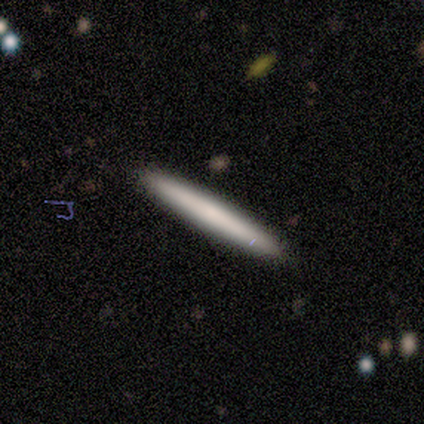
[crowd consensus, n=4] Volunteers were most divided on "smooth or featured": smooth: 75%, featured or disk: 25%, star or artifact: 0%. More confident: how rounded — cigar-shaped (100%); merging — none (100%).